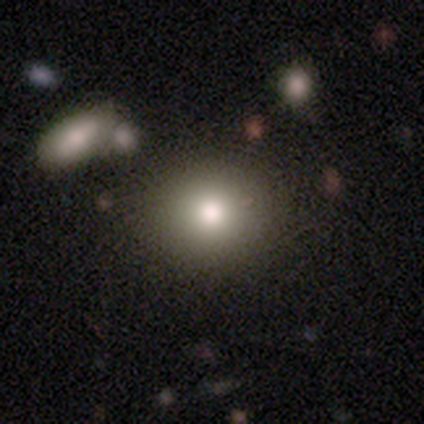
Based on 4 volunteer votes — Q: Smooth or featured?
A: smooth (50%); tied with: star or artifact (50%)
Q: How rounded?
A: round (50%); tied with: in between (50%)
Q: Merging?
A: none (50%); tied with: minor disturbance (50%)